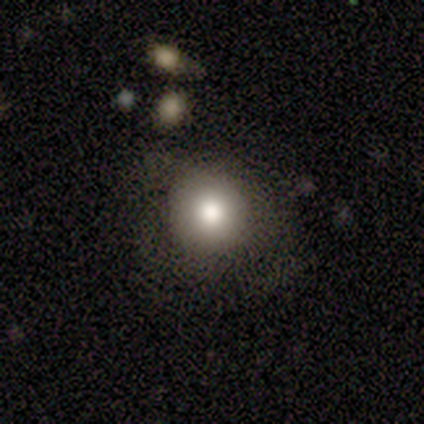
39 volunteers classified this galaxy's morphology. smooth-or-featured: smooth: 62% | featured or disk: 26% | star or artifact: 13%
  how-rounded: round: 88% | in between: 12% | cigar-shaped: 0%
  merging: none: 68% | minor disturbance: 18% | major disturbance: 15% | merger: 0%